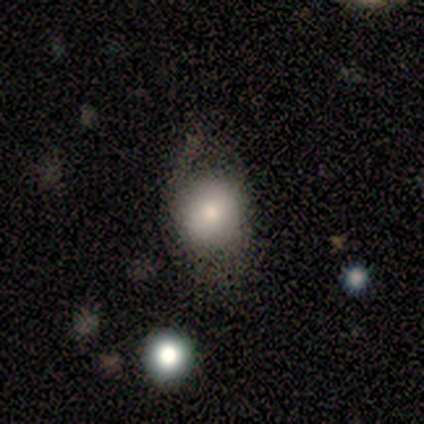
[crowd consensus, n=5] Smooth or featured: smooth — 60% (featured or disk — 40%)
How rounded: round — 67% (in between — 33%)
Merging: minor disturbance — 60% (none — 40%)